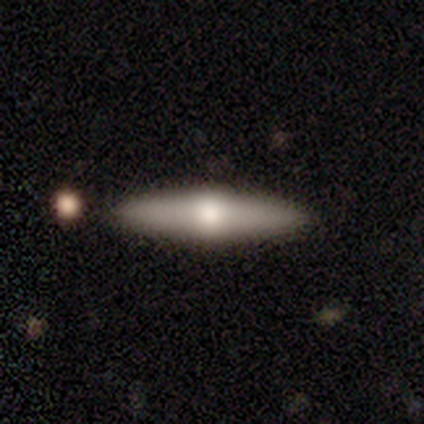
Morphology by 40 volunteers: This appears to be a featured or disk galaxy (48%) viewed edge-on (95%) with a rounded central bulge (94%). Merging: none (97%).